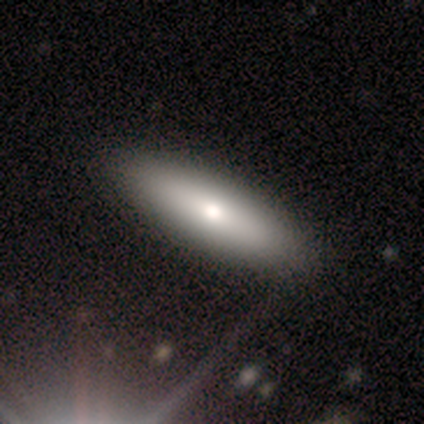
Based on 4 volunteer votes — This is possibly a smooth galaxy (50%, tied with featured or disk). How rounded: clearly cigar-shaped (100%). Merging: clearly none (100%).